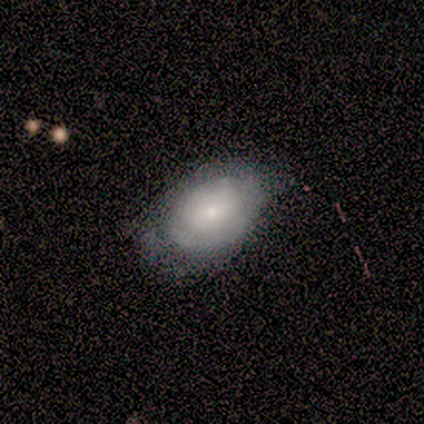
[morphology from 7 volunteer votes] A featured or disk galaxy (43%) with no bar (67%), tight (50%, tied with loose) spiral arms (67%) and a moderate central bulge (67%).

Vote fractions:
- Smooth or featured? featured or disk: 43% / smooth: 29% / star or artifact: 29%
- Edge-on disk? no: 100% / yes: 0%
- Bar? no: 67% / weak: 33% / strong: 0%
- Spiral arms? yes: 67% / no: 33%
- Spiral winding? tight: 50% (tied) / loose: 50% (tied) / medium: 0%
- Spiral arm count? can't tell: 100% / 1: 0% / 2: 0% / 3: 0% / 4: 0% / more than 4: 0%
- Bulge size? moderate: 67% / small: 33% / dominant: 0% / large: 0% / none: 0%
- Merging? none: 60% / minor disturbance: 20% / major disturbance: 20% / merger: 0%